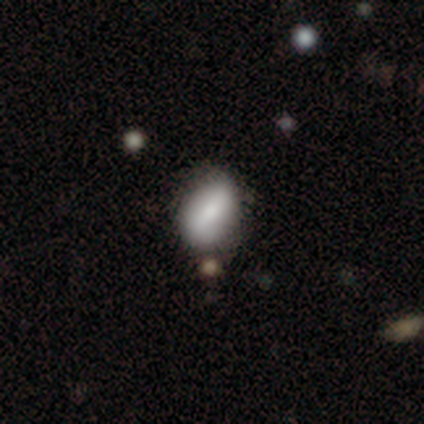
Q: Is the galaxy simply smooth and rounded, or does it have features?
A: smooth — 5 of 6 (83%).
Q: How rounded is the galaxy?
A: in between — 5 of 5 (100%).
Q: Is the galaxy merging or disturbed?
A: none — 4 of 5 (80%).